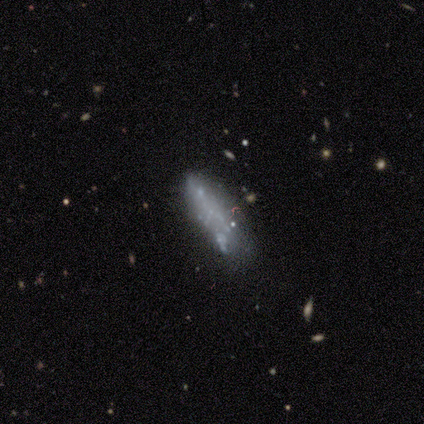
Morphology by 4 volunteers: Volunteers were most divided on "smooth or featured": featured or disk: 50%, smooth: 25%, star or artifact: 25%. More confident: edge-on disk — no (100%); bar — no (100%); spiral arms — no (100%); bulge size — none (100%); merging — none (67%).